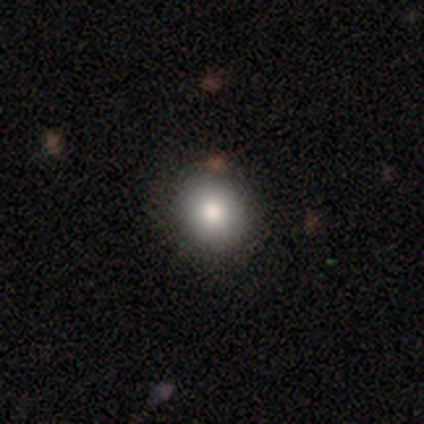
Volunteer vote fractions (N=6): Smooth or featured?
  - smooth: 83% *
  - star or artifact: 17%
  - featured or disk: 0%
How rounded?
  - round: 60% *
  - in between: 40%
  - cigar-shaped: 0%
Merging?
  - none: 100% *
  - minor disturbance: 0%
  - major disturbance: 0%
  - merger: 0%